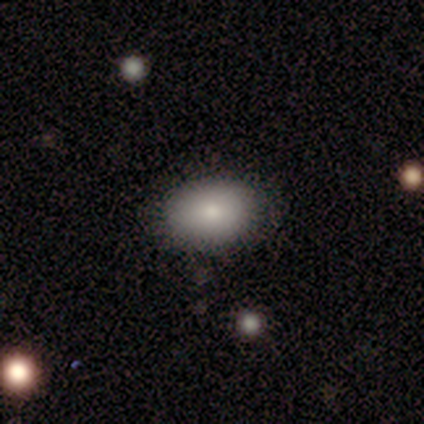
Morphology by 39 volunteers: type=smooth (79%); roundness=in between (77%); merging=none (89%).